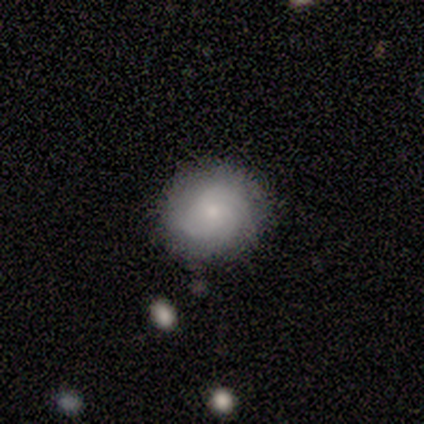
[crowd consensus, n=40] Smooth or featured? 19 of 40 (48%) said featured or disk. Edge-on disk? 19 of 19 (100%) said no. Bar? 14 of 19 (74%) said no. Spiral arms? 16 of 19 (84%) said yes. Spiral winding? 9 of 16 (56%) said tight. Spiral arm count? 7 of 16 (44%) said can't tell. Bulge size? 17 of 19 (89%) said small. Merging? 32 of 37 (86%) said none.